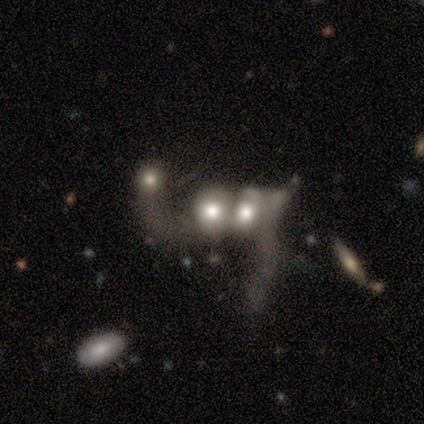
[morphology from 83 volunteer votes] Smooth or featured? 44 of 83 (53%) said featured or disk. Edge-on disk? 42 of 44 (95%) said no. Bar? 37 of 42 (88%) said no. Spiral arms? 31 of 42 (74%) said no. Bulge size? 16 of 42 (38%, tied with moderate) said large. Merging? 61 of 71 (86%) said merger.